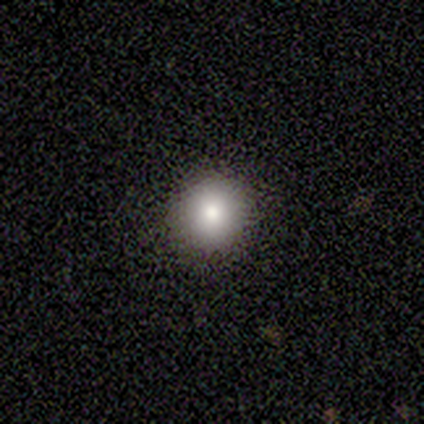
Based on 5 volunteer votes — Overall: smooth (100%). How rounded: round (80%). Merging: none (80%).